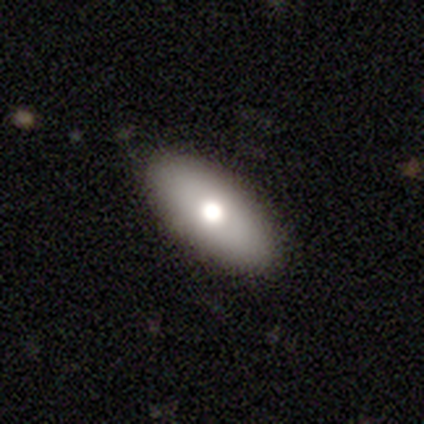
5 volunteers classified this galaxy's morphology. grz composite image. It shows a smooth galaxy with no disk features (100%) that is in between round and cigar-shaped (80%). Merging: none (100%).